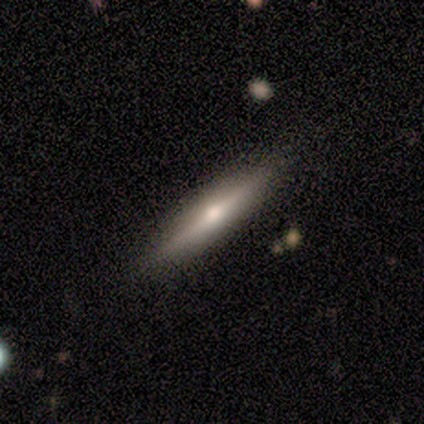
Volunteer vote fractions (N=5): This is likely a featured or disk galaxy (60%). It is clearly viewed edge-on (100%). Edge-on bulge: clearly rounded (100%). Merging: clearly none (100%).